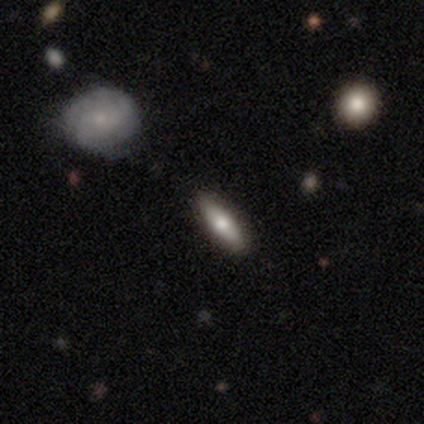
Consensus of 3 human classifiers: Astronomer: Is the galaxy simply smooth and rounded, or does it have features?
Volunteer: smooth — 100%.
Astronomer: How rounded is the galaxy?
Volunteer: in between — 67%.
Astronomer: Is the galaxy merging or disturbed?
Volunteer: none — 100%.